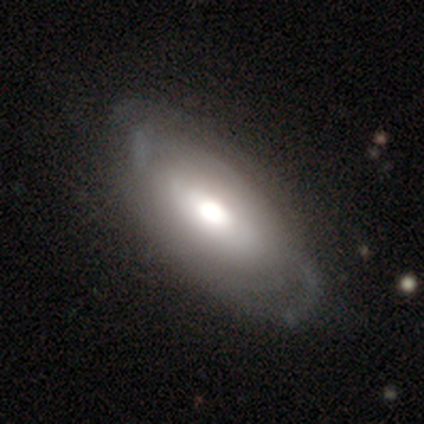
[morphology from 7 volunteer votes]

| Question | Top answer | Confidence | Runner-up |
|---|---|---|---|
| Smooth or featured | featured or disk | 86% | smooth (14%) |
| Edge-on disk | no | 83% | yes (17%) |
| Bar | no | 80% | weak (20%) |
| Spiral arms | yes | 80% | no (20%) |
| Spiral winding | tight | 75% | medium (25%) |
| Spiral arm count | can't tell | 100% | — |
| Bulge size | moderate | 60% | dominant (20%) |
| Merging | none | 100% | — |